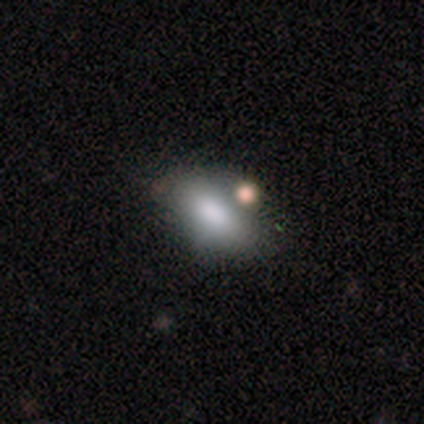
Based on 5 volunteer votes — Morphology: type=smooth (80%); roundness=in between (75%); merging=none (50%).